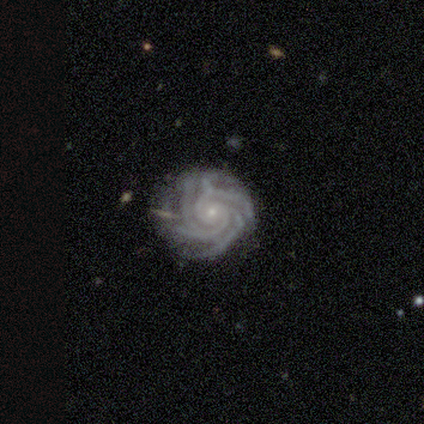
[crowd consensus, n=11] Smooth or featured: featured or disk — 100%
Edge-on disk: no — 100%
Bar: no — 64% (weak — 36%)
Spiral arms: yes — 100%
Spiral winding: tight — 64% (medium — 27%)
Spiral arm count: 4 — 36% (can't tell — 27%)
Bulge size: small — 100%
Merging: none — 91% (minor disturbance — 9%)